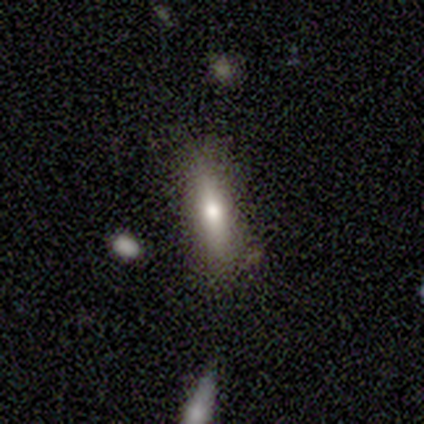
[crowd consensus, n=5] Smooth or featured?
  - smooth: 100% *
  - featured or disk: 0%
  - star or artifact: 0%
How rounded?
  - cigar-shaped: 60% *
  - in between: 40%
  - round: 0%
Merging?
  - none: 60% *
  - minor disturbance: 40%
  - major disturbance: 0%
  - merger: 0%